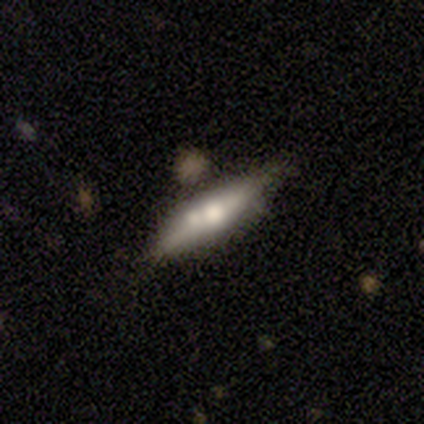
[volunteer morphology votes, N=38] Overall: featured or disk (61%; smooth 37%). Edge-on disk: yes (83%). Edge-on bulge: rounded (100%). Merging: merger (38%; none 32%).